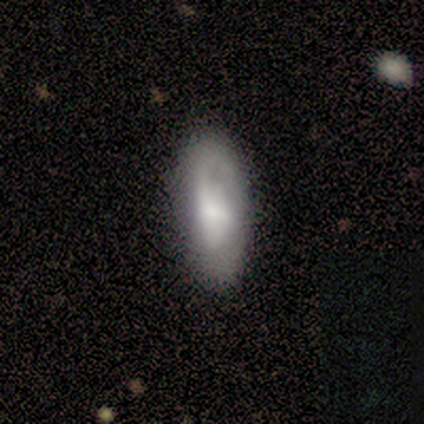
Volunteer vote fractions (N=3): Overall: featured or disk (67%; smooth 33%). Edge-on disk: no (100%). Bar: weak (50%, tied with no). Spiral arms: yes (50%, tied with no). Spiral arm count: 1 (100%). Spiral winding: tight (100%). Bulge size: large (50%, tied with none). Merging: minor disturbance (67%; none 33%).